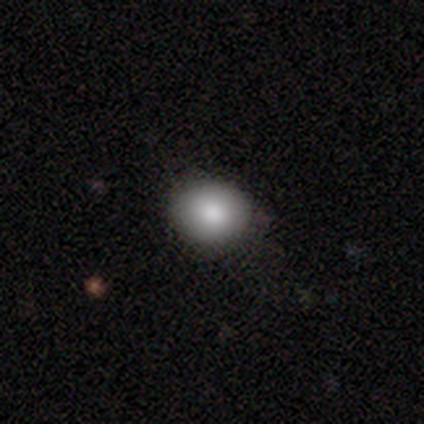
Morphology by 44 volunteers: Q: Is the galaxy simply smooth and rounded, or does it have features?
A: smooth — 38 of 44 (86%).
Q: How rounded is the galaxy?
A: round — 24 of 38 (63%).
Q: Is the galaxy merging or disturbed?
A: none — 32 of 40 (80%).